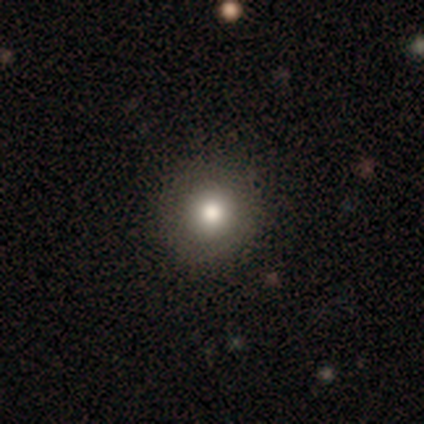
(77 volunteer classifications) Q: Smooth or featured?
A: smooth (78%); runner-up: star or artifact (12%)
Q: How rounded?
A: round (95%); runner-up: in between (5%)
Q: Merging?
A: none (46%); runner-up: minor disturbance (4%)